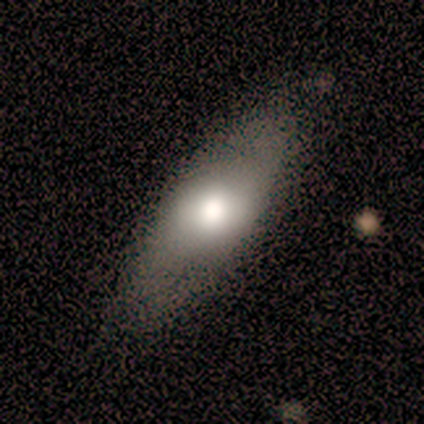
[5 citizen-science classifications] Smooth or featured?
  - smooth: 60% *
  - featured or disk: 40%
  - star or artifact: 0%
How rounded?
  - in between: 67% *
  - cigar-shaped: 33%
  - round: 0%
Merging?
  - none: 80% *
  - major disturbance: 20%
  - minor disturbance: 0%
  - merger: 0%